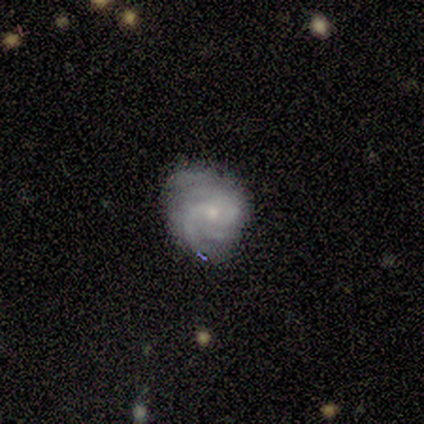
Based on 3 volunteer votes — Q: Smooth or featured?
A: featured or disk (100%)
Q: Edge-on disk?
A: no (100%)
Q: Bar?
A: no (100%)
Q: Spiral arms?
A: yes (100%)
Q: Spiral winding?
A: medium (67%); runner-up: tight (33%)
Q: Spiral arm count?
A: can't tell (67%); runner-up: 3 (33%)
Q: Bulge size?
A: moderate (67%); runner-up: small (33%)
Q: Merging?
A: none (33%); tied with: minor disturbance (33%); major disturbance (33%)